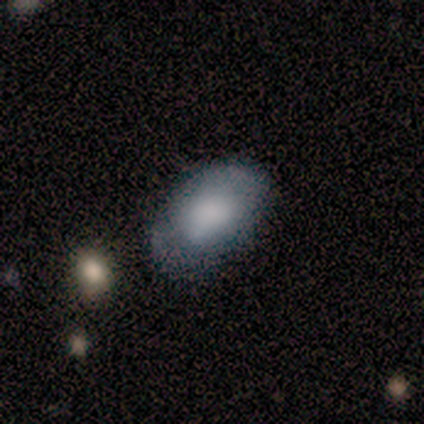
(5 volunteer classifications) smooth 80%, featured or disk 20%, star or artifact 0%. Down the decision tree: how rounded — in between (100%); merging — none (60%).